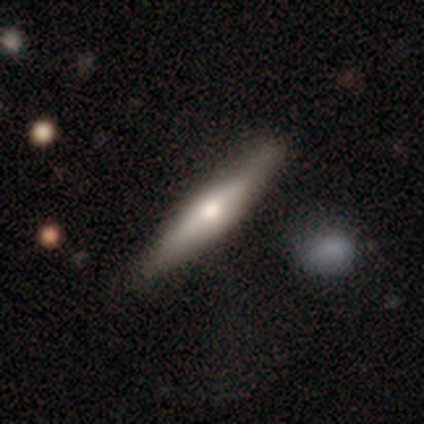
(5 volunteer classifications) This appears to be a featured or disk galaxy (60%) viewed edge-on (100%) with a rounded central bulge (100%). Merging: none (100%).